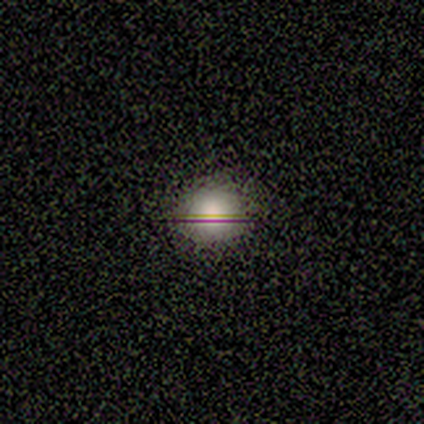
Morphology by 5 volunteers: smooth 60%, featured or disk 20%, star or artifact 20%. Down the decision tree: how rounded — round (67%); merging — none (75%).